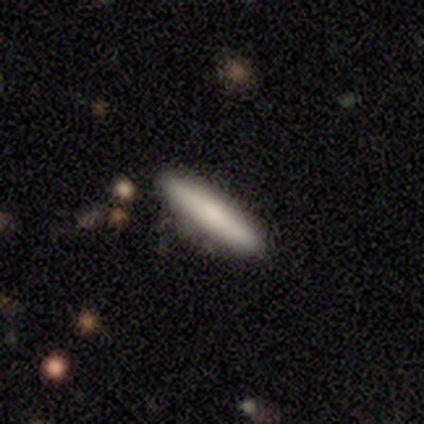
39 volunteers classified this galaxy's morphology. Q: Smooth or featured?
A: smooth (85%); runner-up: featured or disk (13%)
Q: How rounded?
A: cigar-shaped (97%); runner-up: in between (3%)
Q: Merging?
A: none (82%); runner-up: minor disturbance (11%)